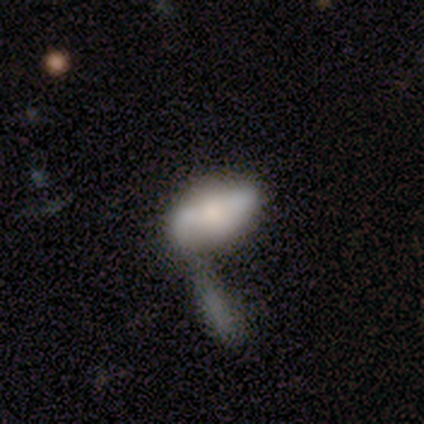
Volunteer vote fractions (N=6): A smooth galaxy with no disk features (50%) that is in between round and cigar-shaped (67%).

Vote fractions:
- Smooth or featured? smooth: 50% / featured or disk: 33% / star or artifact: 17%
- How rounded? in between: 67% / cigar-shaped: 33% / round: 0%
- Merging? merger: 40% / none: 20% / minor disturbance: 20% / major disturbance: 20%